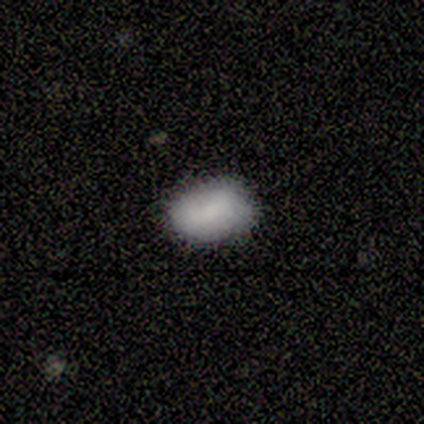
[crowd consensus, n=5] Morphology: type=smooth (60%); roundness=in between (67%); merging=none (75%).